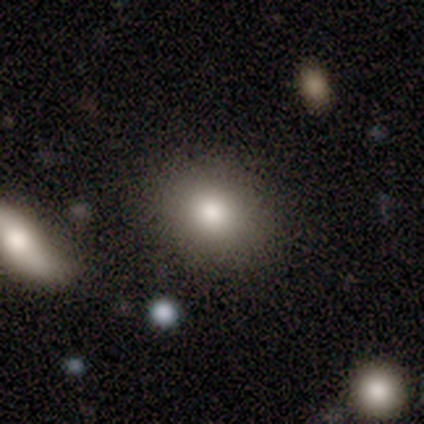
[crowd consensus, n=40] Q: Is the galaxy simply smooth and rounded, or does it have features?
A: smooth — 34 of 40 (85%).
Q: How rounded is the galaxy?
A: round — 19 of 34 (56%).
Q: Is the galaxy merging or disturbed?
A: none — 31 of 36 (86%).